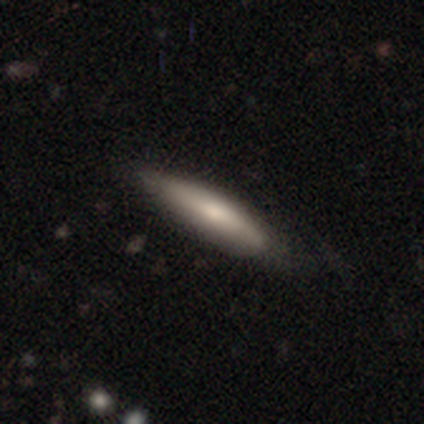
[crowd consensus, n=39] A smooth galaxy with no disk features (67%) that is cigar-shaped (81%).

Vote fractions:
- Smooth or featured? smooth: 67% / featured or disk: 31% / star or artifact: 3%
- How rounded? cigar-shaped: 81% / in between: 15% / round: 4%
- Merging? none: 45% / minor disturbance: 21% / major disturbance: 5% / merger: 0%